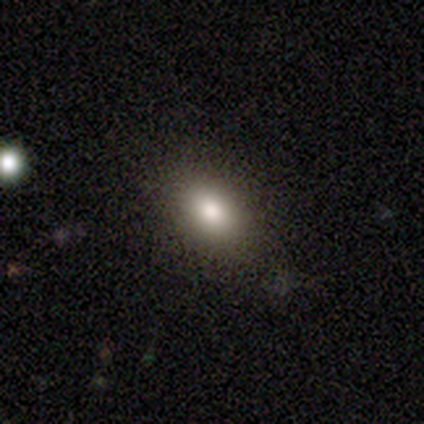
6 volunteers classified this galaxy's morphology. Volunteers were most divided on "smooth or featured": smooth: 83%, featured or disk: 17%, star or artifact: 0%. More confident: how rounded — in between (100%); merging — none (83%).